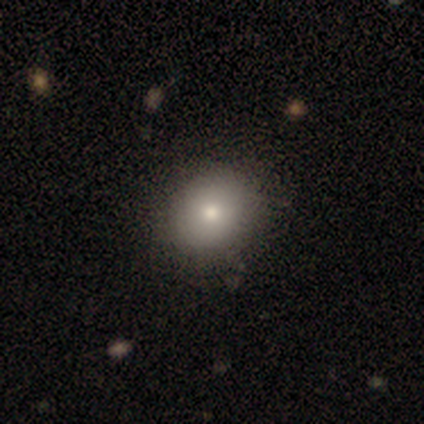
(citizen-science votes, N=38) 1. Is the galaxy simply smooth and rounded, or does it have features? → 74% smooth, 13% featured or disk, 13% star or artifact.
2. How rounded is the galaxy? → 75% round, 25% in between, 0% cigar-shaped.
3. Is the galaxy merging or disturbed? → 58% none, 3% minor disturbance, 3% major disturbance, 3% merger.